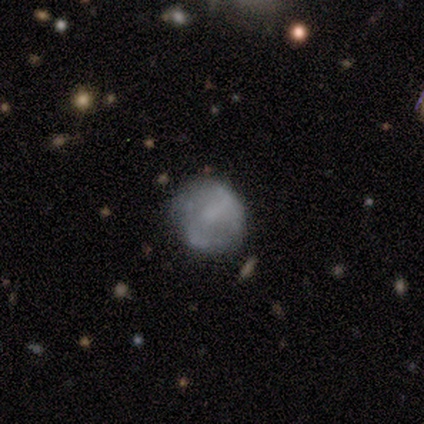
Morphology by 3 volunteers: Smooth or featured? featured or disk (67%)
Edge-on disk? no (100%)
Bar? weak (100%)
Spiral arms? no (100%)
Bulge size? moderate (100%)
Merging? none (67%)